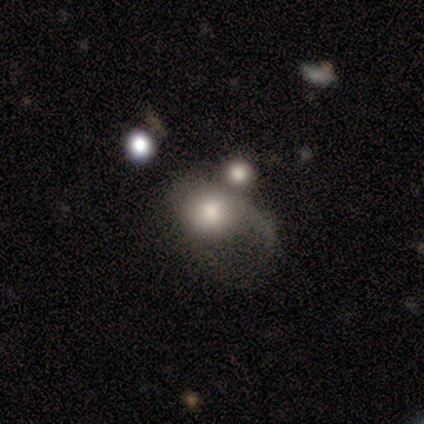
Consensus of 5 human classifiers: Q: Smooth or featured?
A: smooth (40%); tied with: featured or disk (40%)
Q: How rounded?
A: round (100%)
Q: Merging?
A: major disturbance (50%); runner-up: minor disturbance (25%)